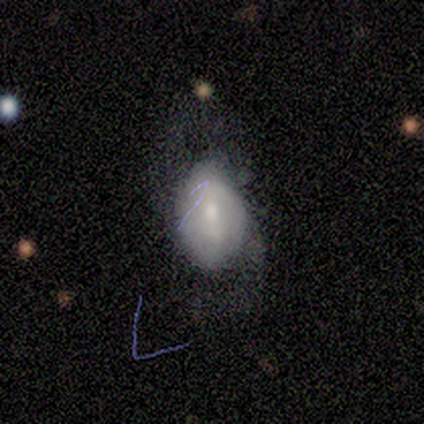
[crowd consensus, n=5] Overall: featured or disk (60%; smooth 40%). Edge-on disk: no (100%). Bar: weak (67%; no 33%). Spiral arms: yes (67%; no 33%). Spiral arm count: 2 (100%). Spiral winding: tight (50%, tied with loose). Bulge size: small (67%; moderate 33%). Merging: none (60%; major disturbance 20%).